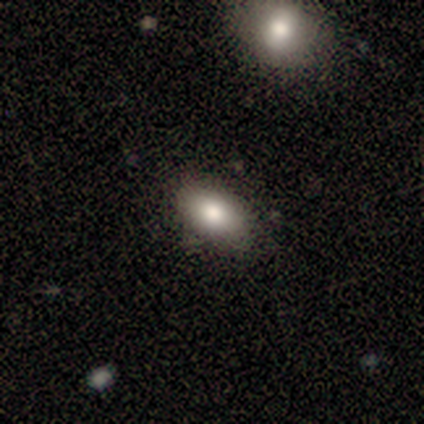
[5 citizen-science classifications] Smooth or featured: smooth — 100%
How rounded: in between — 100%
Merging: none — 60% (minor disturbance — 40%)